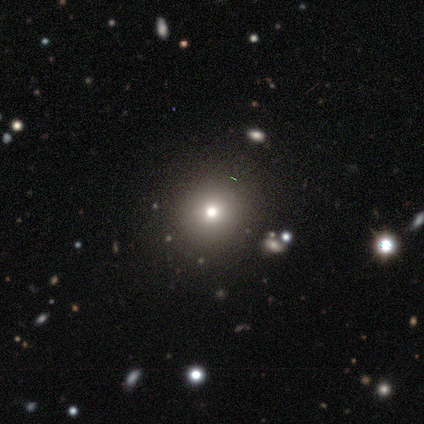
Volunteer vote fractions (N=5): Overall: smooth (60%; featured or disk 20%). How rounded: round (67%; in between 33%). Merging: none (75%).